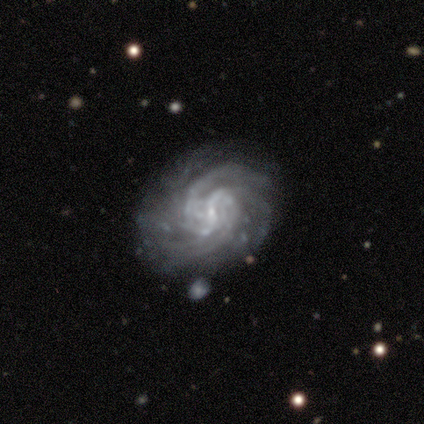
featured or disk 100%, smooth 0%, star or artifact 0%. Down the decision tree: edge-on disk — no (100%); bar — strong (50%, tied with weak); spiral arms — yes (100%); spiral arm count — 2 (50%); spiral winding — tight (75%); bulge size — small (75%); merging — none (100%).